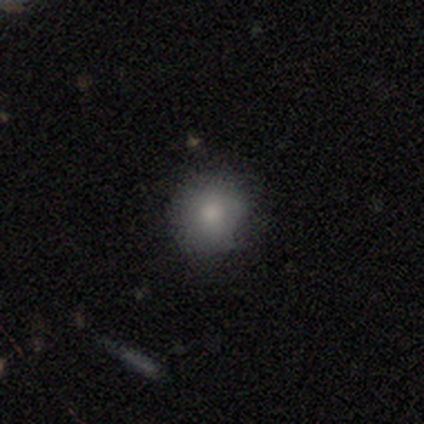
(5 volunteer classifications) Smooth or featured?
  - smooth: 100% *
  - featured or disk: 0%
  - star or artifact: 0%
How rounded?
  - round: 80% *
  - in between: 20%
  - cigar-shaped: 0%
Merging?
  - none: 80% *
  - minor disturbance: 20%
  - major disturbance: 0%
  - merger: 0%